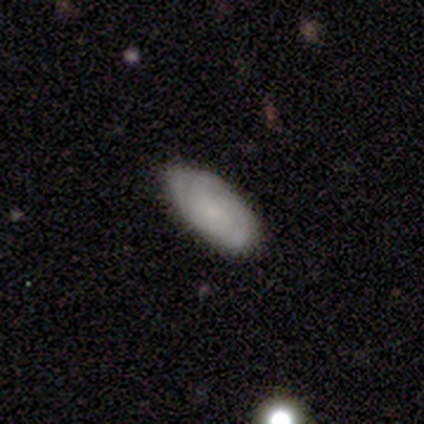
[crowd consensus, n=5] smooth-or-featured: smooth: 60% | featured or disk: 40% | star or artifact: 0%
  how-rounded: cigar-shaped: 67% | in between: 33% | round: 0%
  merging: none: 80% | major disturbance: 20% | minor disturbance: 0% | merger: 0%